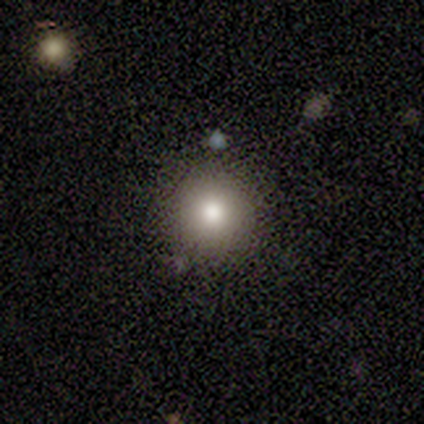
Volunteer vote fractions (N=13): Q: Smooth or featured?
A: smooth (62%); runner-up: star or artifact (31%)
Q: How rounded?
A: round (100%)
Q: Merging?
A: none (100%)